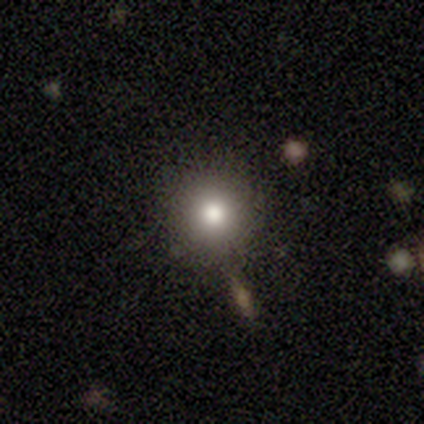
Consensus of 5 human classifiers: Smooth or featured?
  - featured or disk: 80% *
  - smooth: 20%
  - star or artifact: 0%
Edge-on disk?
  - no: 100% *
  - yes: 0%
Bar?
  - no: 100% *
  - strong: 0%
  - weak: 0%
Spiral arms?
  - no: 100% *
  - yes: 0%
Bulge size?
  - moderate: 75% *
  - large: 25%
  - dominant: 0%
  - small: 0%
  - none: 0%
Merging?
  - none: 60% *
  - minor disturbance: 20%
  - merger: 20%
  - major disturbance: 0%